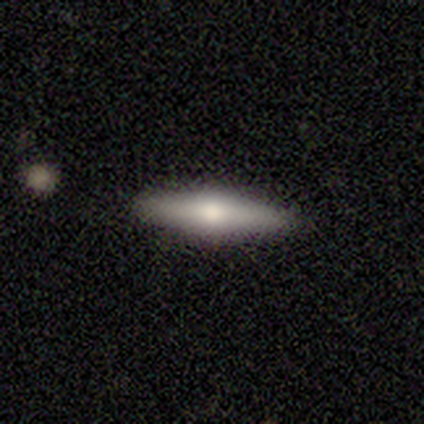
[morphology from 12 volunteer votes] smooth_or_featured: featured or disk (p=0.67) [alt: smooth p=0.25]
disk_edge_on: yes (p=0.88) [alt: no p=0.12]
edge_on_bulge: rounded (p=1.00)
merging: none (p=1.00)